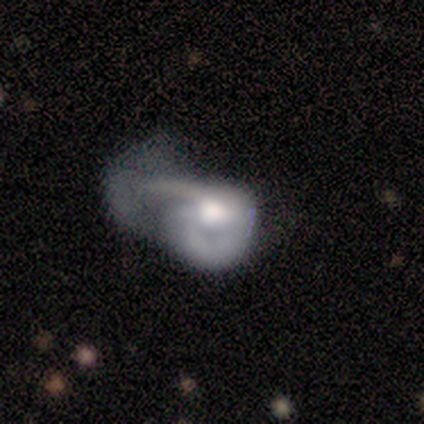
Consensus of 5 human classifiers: Volunteers were most divided on "smooth or featured" (2-way tie): smooth: 40%, featured or disk: 40%, star or artifact: 20%. More confident: how rounded — in between (100%); merging — major disturbance (100%).